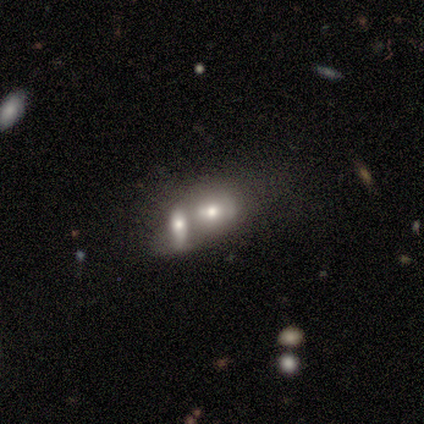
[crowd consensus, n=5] smooth 100%, featured or disk 0%, star or artifact 0%. Down the decision tree: how rounded — in between (80%); merging — merger (100%).